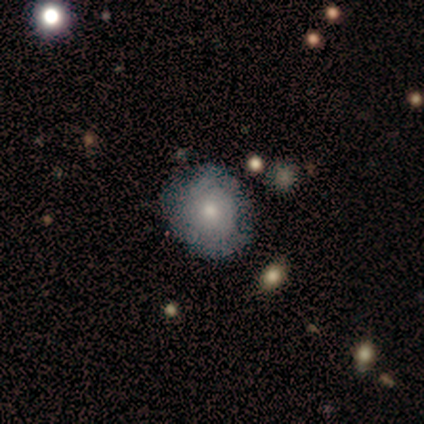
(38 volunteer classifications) Q: Smooth or featured?
A: smooth (63%); runner-up: featured or disk (32%)
Q: How rounded?
A: round (79%); runner-up: in between (21%)
Q: Merging?
A: none (72%); runner-up: minor disturbance (17%)